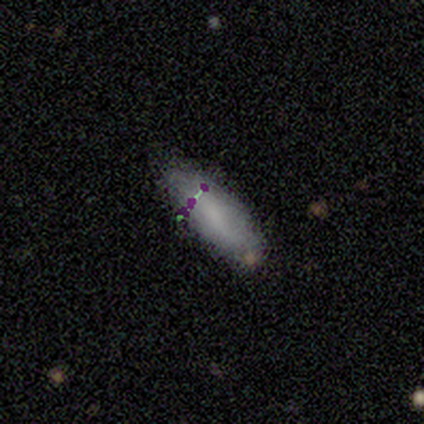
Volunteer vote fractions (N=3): This appears to be a smooth galaxy with no disk features (33%, tied with featured or disk and star or artifact) that is in between round and cigar-shaped (100%). Merging: none (100%).